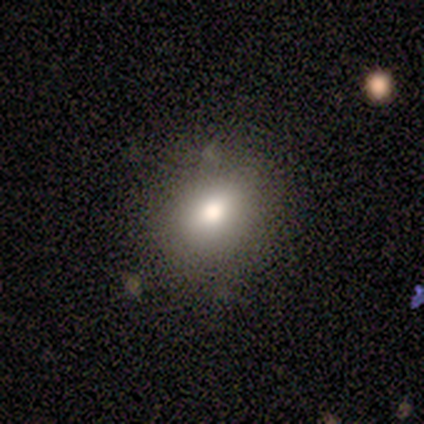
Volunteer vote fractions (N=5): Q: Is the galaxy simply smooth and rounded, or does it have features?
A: smooth — 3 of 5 (60%).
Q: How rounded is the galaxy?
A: round — 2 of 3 (67%).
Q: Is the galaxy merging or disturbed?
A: none — 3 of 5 (60%).